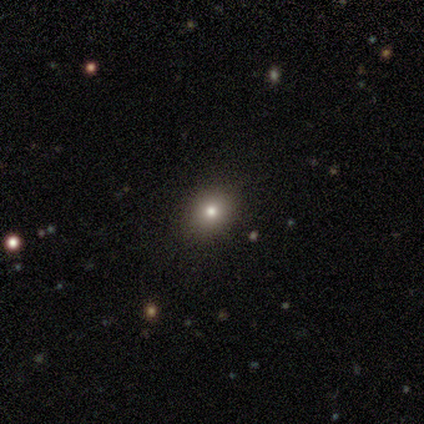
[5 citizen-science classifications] This is clearly a smooth galaxy (80%). How rounded: likely in between (75%). Merging: likely none (75%).